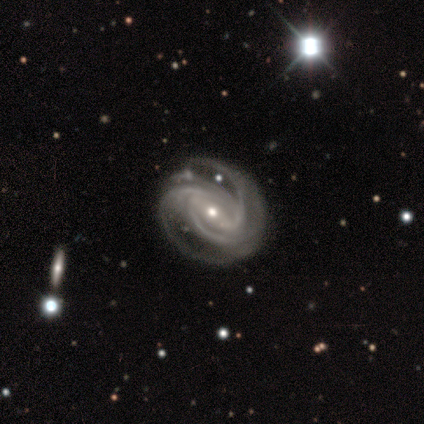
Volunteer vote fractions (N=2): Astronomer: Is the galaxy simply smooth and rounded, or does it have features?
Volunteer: featured or disk — 100%.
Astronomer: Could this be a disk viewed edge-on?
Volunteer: no — 100%.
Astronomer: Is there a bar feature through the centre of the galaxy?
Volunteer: weak — 50%, tied with no at 50%.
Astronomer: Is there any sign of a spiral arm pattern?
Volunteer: yes — 100%.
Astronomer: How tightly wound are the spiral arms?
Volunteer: medium — 100%.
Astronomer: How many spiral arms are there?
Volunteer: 2 — 50%, tied with 3 at 50%.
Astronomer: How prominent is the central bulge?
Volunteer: moderate — 50%, tied with small at 50%.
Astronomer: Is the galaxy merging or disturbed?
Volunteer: none — 100%.